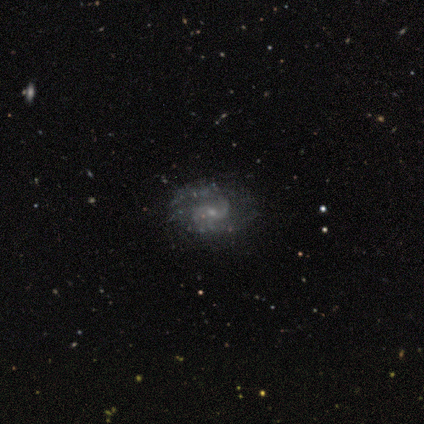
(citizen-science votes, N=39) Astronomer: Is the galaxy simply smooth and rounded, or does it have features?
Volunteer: featured or disk — 90%.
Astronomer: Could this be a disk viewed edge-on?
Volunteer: no — 100%.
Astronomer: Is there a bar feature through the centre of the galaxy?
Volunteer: no — 66%.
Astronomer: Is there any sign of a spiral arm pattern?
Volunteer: yes — 89%.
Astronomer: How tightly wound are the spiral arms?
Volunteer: medium — 58%.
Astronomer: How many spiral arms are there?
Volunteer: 2 — 68%.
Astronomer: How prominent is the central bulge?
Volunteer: small — 77%.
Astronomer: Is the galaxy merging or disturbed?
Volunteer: none — 70%.